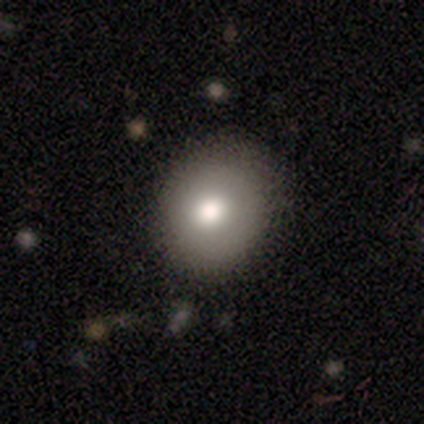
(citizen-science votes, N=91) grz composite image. It shows a smooth galaxy with no disk features (77%) that is round (73%). Merging: none (86%).